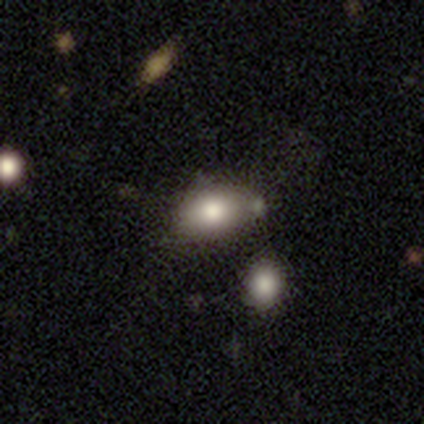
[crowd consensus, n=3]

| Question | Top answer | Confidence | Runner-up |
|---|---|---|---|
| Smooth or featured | smooth | 67% | star or artifact (33%) |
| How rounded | in between | 100% | — |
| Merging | none | 50% | tied: merger (50%) |